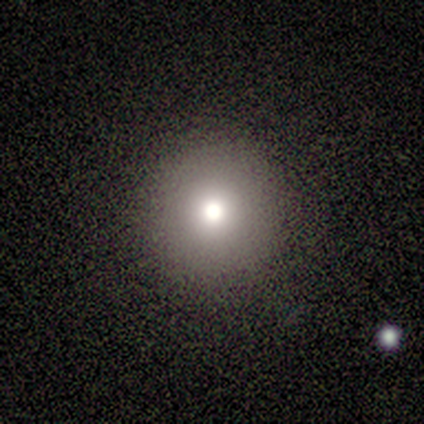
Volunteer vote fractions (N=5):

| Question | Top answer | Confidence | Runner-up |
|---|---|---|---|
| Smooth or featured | smooth | 80% | star or artifact (20%) |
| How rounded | round | 100% | — |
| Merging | none | 100% | — |